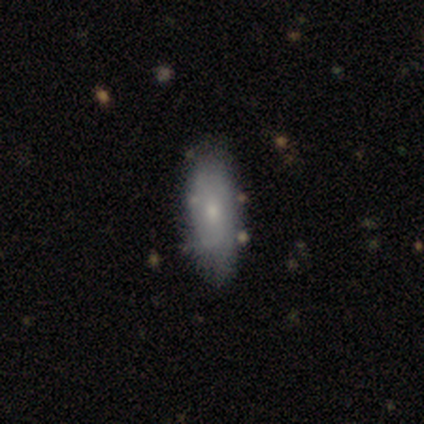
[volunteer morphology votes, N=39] Smooth or featured? smooth (54%)
How rounded? in between (71%)
Merging? none (59%)